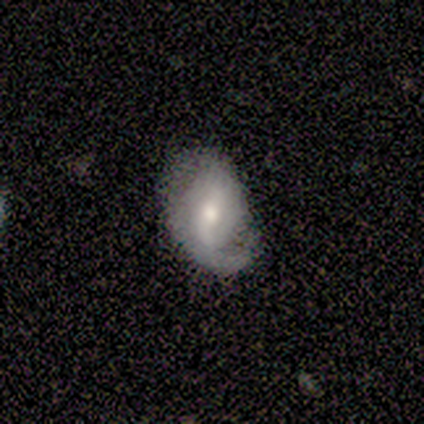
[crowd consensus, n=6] Overall: featured or disk (83%). Edge-on disk: no (100%). Bar: no (60%; strong 20%). Spiral arms: yes (100%). Spiral arm count: 1 (60%; 2 40%). Spiral winding: loose (60%; medium 40%). Bulge size: moderate (60%; large 20%). Merging: none (50%, tied with minor disturbance).